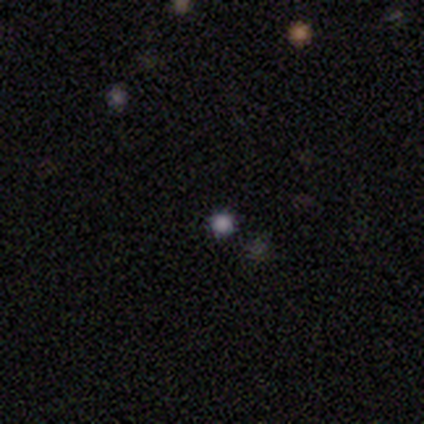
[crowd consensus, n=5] Smooth or featured: smooth — 60% (star or artifact — 40%)
How rounded: round — 100%
Merging: none — 100%